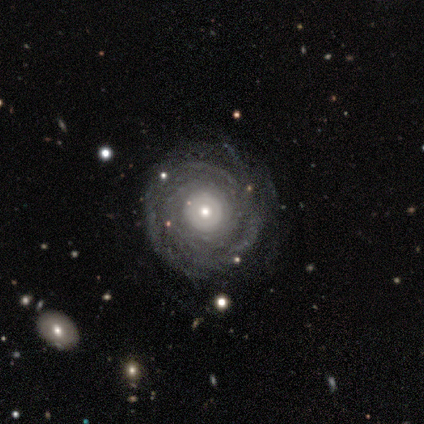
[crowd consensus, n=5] smooth_or_featured: featured or disk (p=0.80) [alt: smooth p=0.20]
disk_edge_on: no (p=1.00)
bar: no (p=1.00)
has_spiral_arms: yes (p=1.00)
spiral_winding: tight (p=1.00)
spiral_arm_count: can't tell (p=0.75) [alt: 3 p=0.25]
bulge_size: moderate (p=0.50) [tied with: small p=0.50]
merging: none (p=0.80) [alt: minor disturbance p=0.20]